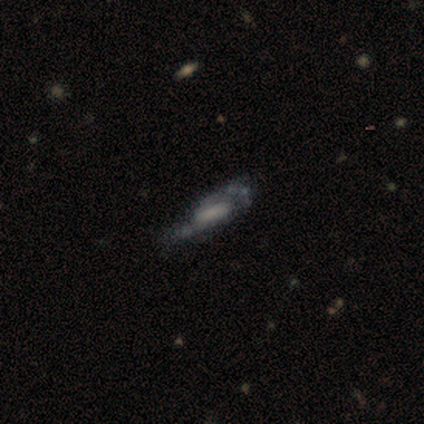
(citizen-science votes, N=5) smooth-or-featured: featured or disk: 60% | smooth: 40% | star or artifact: 0%
  disk-edge-on: no: 67% | yes: 33%
    bar: strong: 50% (tied) | weak: 50% (tied) | no: 0%
    has-spiral-arms: yes: 100% | no: 0%
      spiral-winding: medium: 50% (tied) | loose: 50% (tied) | tight: 0%
      spiral-arm-count: 2: 100% | 1: 0% | 3: 0% | 4: 0% | more than 4: 0% | can't tell: 0%
    bulge-size: large: 50% (tied) | small: 50% (tied) | dominant: 0% | moderate: 0% | none: 0%
  merging: minor disturbance: 60% | none: 40% | major disturbance: 0% | merger: 0%